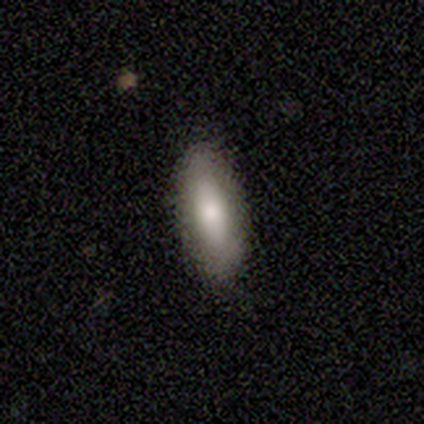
Smooth or featured?
  - smooth: 80% *
  - featured or disk: 20%
  - star or artifact: 0%
How rounded?
  - in between: 75% *
  - cigar-shaped: 25%
  - round: 0%
Merging?
  - none: 80% *
  - minor disturbance: 20%
  - major disturbance: 0%
  - merger: 0%